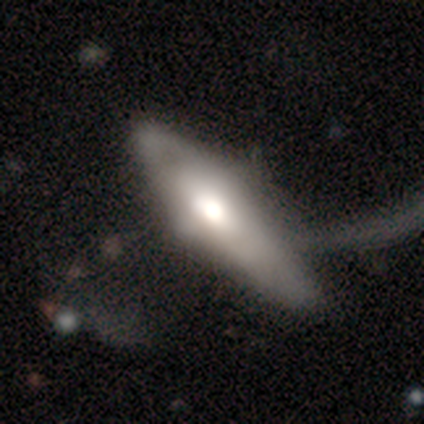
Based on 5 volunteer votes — This appears to be a featured or disk galaxy (80%) with no bar (100%), 1 (50%, tied with can't tell) medium (100%) spiral arms (67%) and a moderate central bulge (67%). Merging: major disturbance (80%).